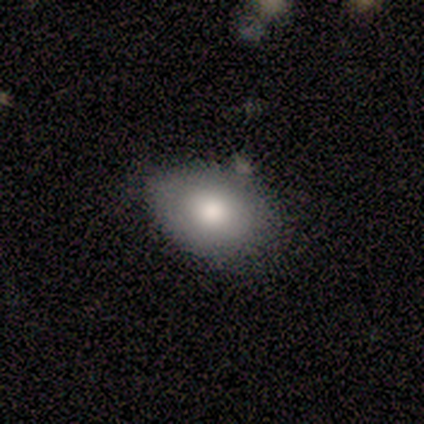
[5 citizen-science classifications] This is clearly a smooth galaxy (100%). How rounded: clearly in between (100%). Merging: clearly none (80%).